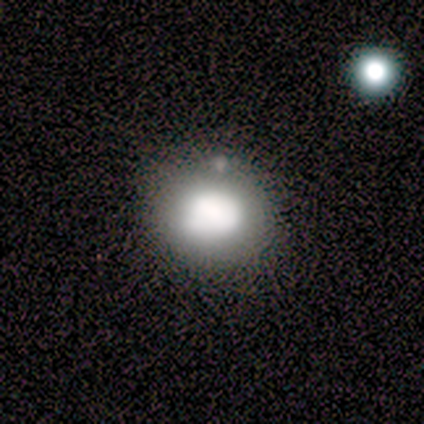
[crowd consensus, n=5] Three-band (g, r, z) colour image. It shows a smooth galaxy with no disk features (80%) that is round (75%). Merging: none (40%, tied with minor disturbance).